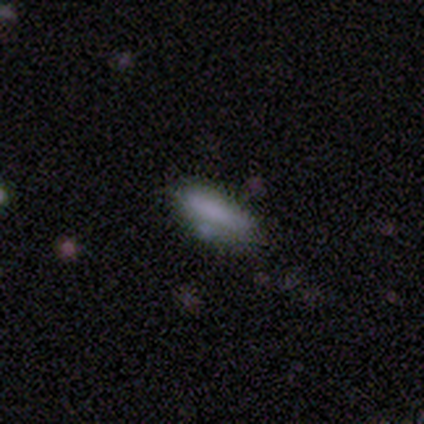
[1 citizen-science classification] featured or disk 100%, smooth 0%, star or artifact 0%. Down the decision tree: edge-on disk — no (100%); bar — no (100%); spiral arms — no (100%); bulge size — none (100%); merging — none (100%).